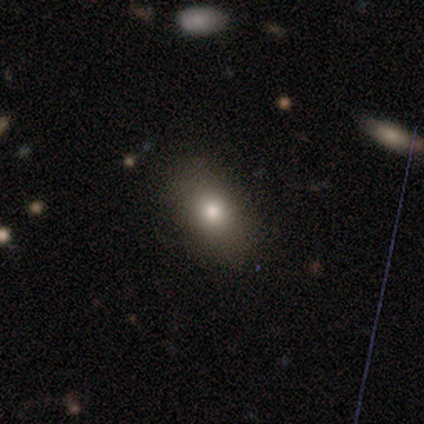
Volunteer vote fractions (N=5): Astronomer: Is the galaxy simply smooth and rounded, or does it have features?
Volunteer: smooth — 100%.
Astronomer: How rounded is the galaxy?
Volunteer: in between — 100%.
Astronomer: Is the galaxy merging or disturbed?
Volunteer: none — 100%.